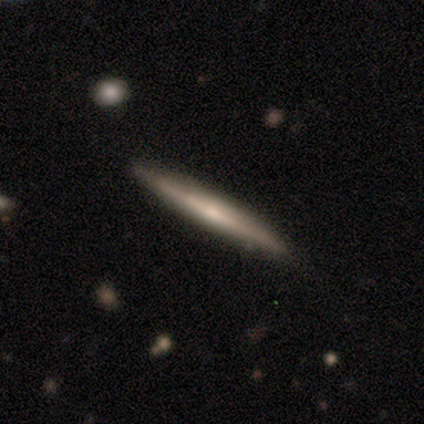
Smooth or featured?
  - featured or disk: 57% *
  - smooth: 41%
  - star or artifact: 3%
Edge-on disk?
  - yes: 98% *
  - no: 2%
Edge-on bulge?
  - none: 49% *
  - rounded: 39%
  - boxy: 12%
Merging?
  - none: 51% *
  - minor disturbance: 6%
  - merger: 1%
  - major disturbance: 0%